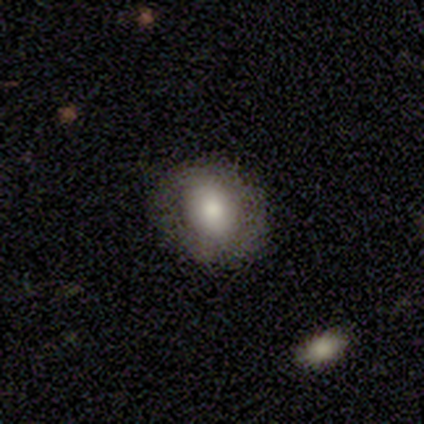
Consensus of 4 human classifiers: Smooth or featured? smooth (50%)
How rounded? round (50%, tied with in between)
Merging? none (67%)